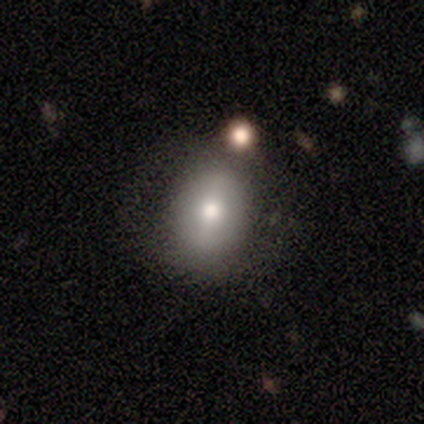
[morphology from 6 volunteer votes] type=smooth (100%); roundness=round (67%); merging=none (83%).